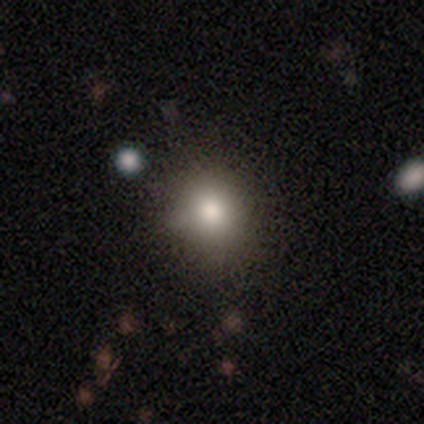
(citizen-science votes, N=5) Morphology: type=smooth (60%); roundness=round (100%); merging=none (100%).